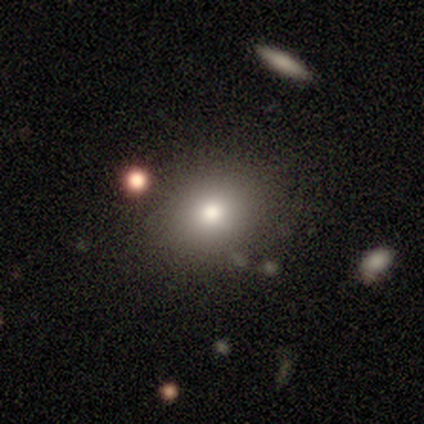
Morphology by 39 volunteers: Overall: smooth (79%). How rounded: in between (58%; round 42%). Merging: none (80%).